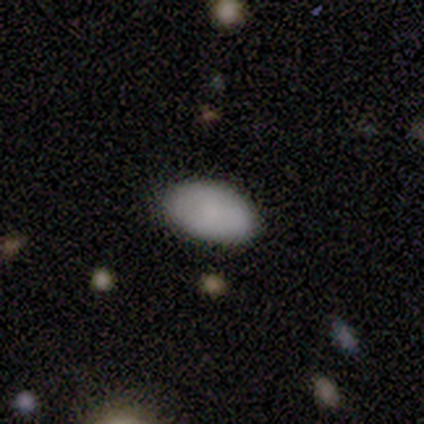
Smooth or featured? smooth (100%)
How rounded? round (50%, tied with in between)
Merging? none (100%)